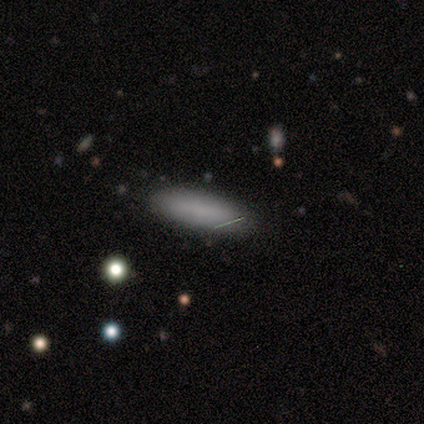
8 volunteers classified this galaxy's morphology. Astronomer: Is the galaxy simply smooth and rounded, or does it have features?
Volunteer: smooth — 75%.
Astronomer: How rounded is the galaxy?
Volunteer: in between — 83%.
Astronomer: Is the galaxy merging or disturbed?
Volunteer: none — 83%.